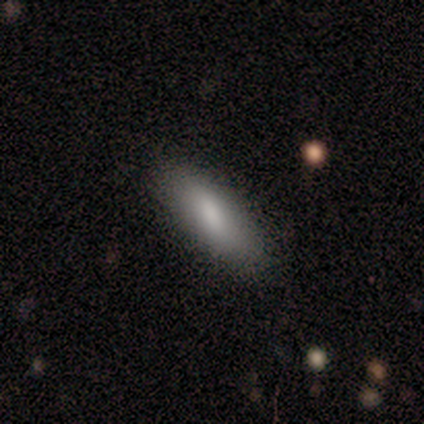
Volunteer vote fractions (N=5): Smooth or featured?
  - smooth: 100% *
  - featured or disk: 0%
  - star or artifact: 0%
How rounded?
  - in between: 100% *
  - round: 0%
  - cigar-shaped: 0%
Merging?
  - none: 100% *
  - minor disturbance: 0%
  - major disturbance: 0%
  - merger: 0%